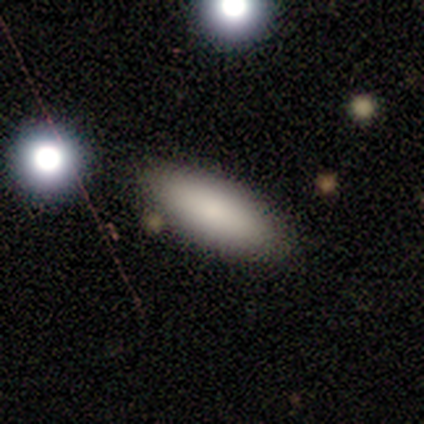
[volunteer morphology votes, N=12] Smooth or featured? smooth (100%)
How rounded? in between (67%)
Merging? none (92%)